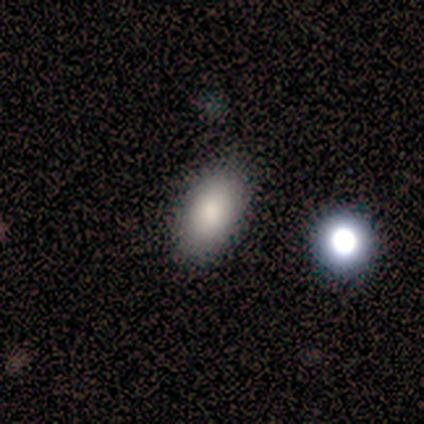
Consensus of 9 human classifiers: This appears to be a smooth galaxy with no disk features (67%) that is in between round and cigar-shaped (100%). Merging: none (86%).